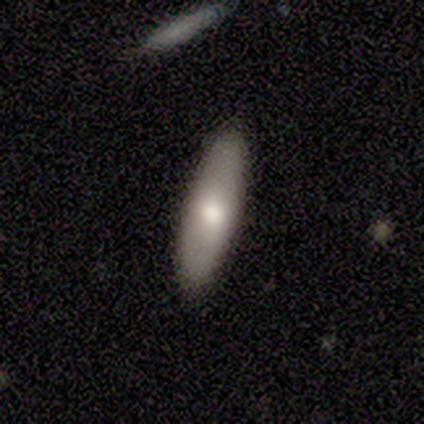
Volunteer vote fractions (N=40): A smooth galaxy with no disk features (60%) that is cigar-shaped (54%).

Vote fractions:
- Smooth or featured? smooth: 60% / featured or disk: 35% / star or artifact: 5%
- How rounded? cigar-shaped: 54% / in between: 42% / round: 4%
- Merging? none: 89% / minor disturbance: 8% / major disturbance: 3% / merger: 0%